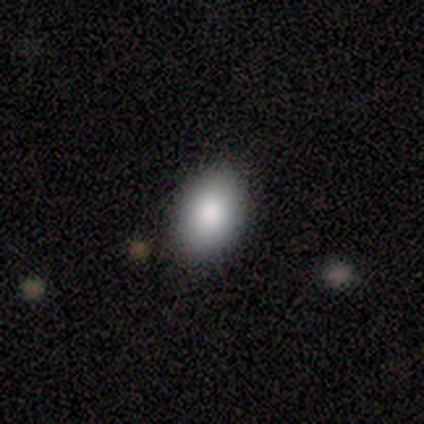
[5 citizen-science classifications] Q: Smooth or featured?
A: smooth (60%); runner-up: star or artifact (40%)
Q: How rounded?
A: in between (67%); runner-up: round (33%)
Q: Merging?
A: none (67%); runner-up: minor disturbance (33%)